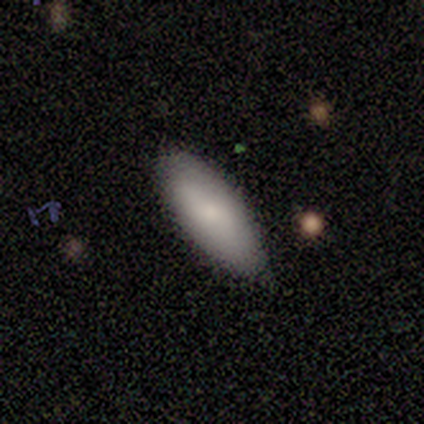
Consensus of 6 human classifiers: Volunteers were most divided on "how rounded": in between: 80%, cigar-shaped: 20%, round: 0%. More confident: smooth or featured — smooth (83%); merging — none (83%).